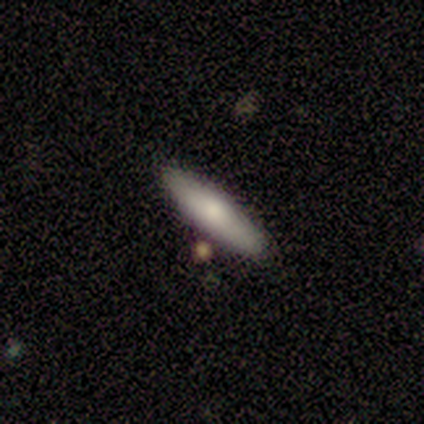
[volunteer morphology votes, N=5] Smooth or featured: smooth — 100%
How rounded: in between — 60% (cigar-shaped — 40%)
Merging: none — 100%